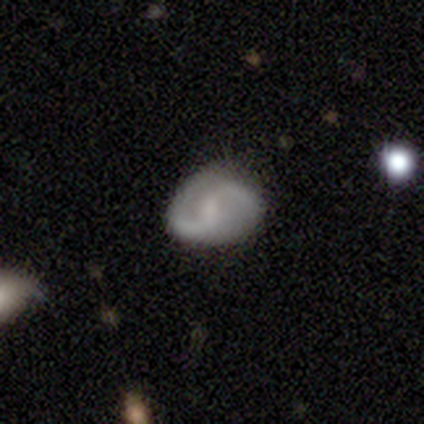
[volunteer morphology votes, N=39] smooth-or-featured: featured or disk: 74% | smooth: 21% | star or artifact: 5%
  disk-edge-on: no: 97% | yes: 3%
    bar: weak: 68% | no: 25% | strong: 7%
    has-spiral-arms: yes: 93% | no: 7%
      spiral-winding: medium: 42% (tied) | loose: 42% (tied) | tight: 15%
      spiral-arm-count: 2: 92% | 1: 4% | 3: 4% | 4: 0% | more than 4: 0% | can't tell: 0%
    bulge-size: small: 43% | moderate: 29% | none: 29% | dominant: 0% | large: 0%
  merging: none: 65% | minor disturbance: 30% | major disturbance: 3% | merger: 3%